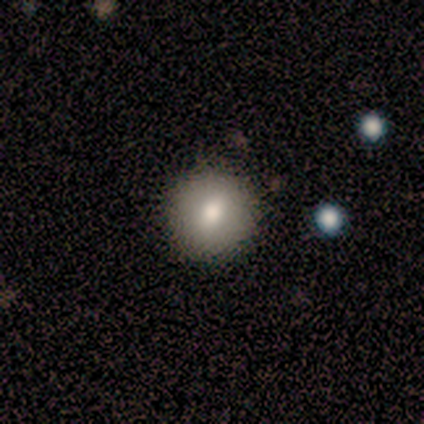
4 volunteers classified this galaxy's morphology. Smooth or featured? 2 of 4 (50%) said star or artifact.